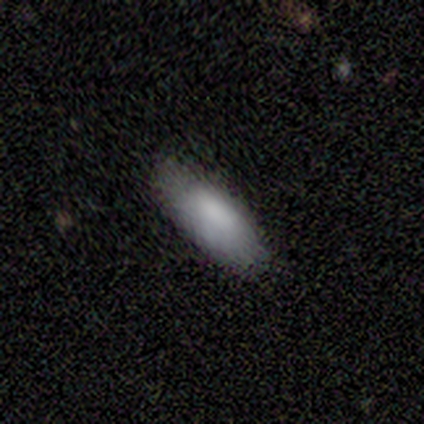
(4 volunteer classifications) Morphology: type=smooth (100%); roundness=in between (100%); merging=none (75%).